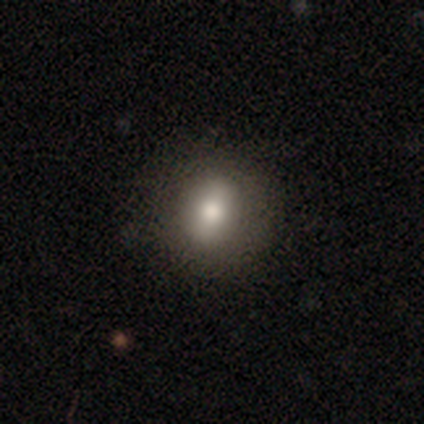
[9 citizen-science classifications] A smooth galaxy with no disk features (78%) that is in between round and cigar-shaped (57%).

Vote fractions:
- Smooth or featured? smooth: 78% / featured or disk: 11% / star or artifact: 11%
- How rounded? in between: 57% / round: 43% / cigar-shaped: 0%
- Merging? none: 75% / minor disturbance: 25% / major disturbance: 0% / merger: 0%